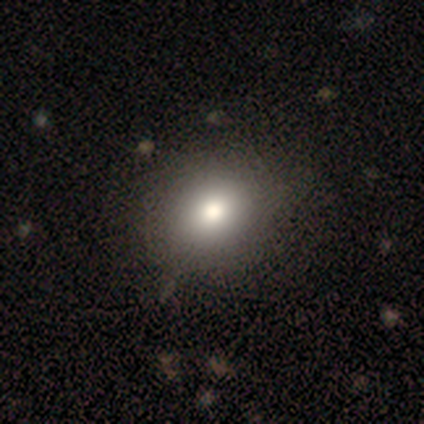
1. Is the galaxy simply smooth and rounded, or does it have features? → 60% star or artifact, 20% smooth, 20% featured or disk.